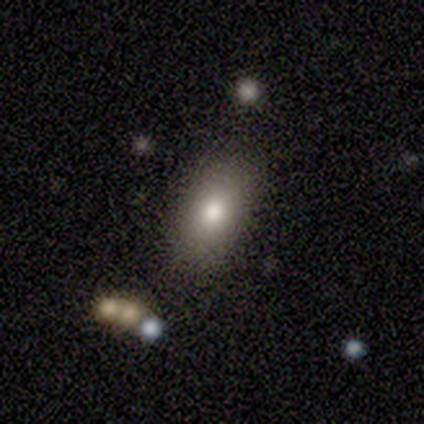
A smooth galaxy with no disk features (80%) that is in between round and cigar-shaped (100%).

Vote fractions:
- Smooth or featured? smooth: 80% / featured or disk: 20% / star or artifact: 0%
- How rounded? in between: 100% / round: 0% / cigar-shaped: 0%
- Merging? none: 100% / minor disturbance: 0% / major disturbance: 0% / merger: 0%